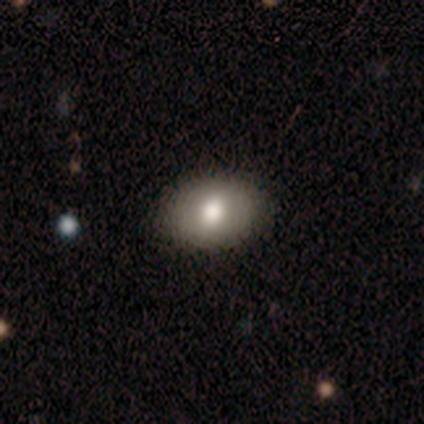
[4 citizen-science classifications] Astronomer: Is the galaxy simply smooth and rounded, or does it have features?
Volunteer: smooth — 100%.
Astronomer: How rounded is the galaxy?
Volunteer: in between — 75%.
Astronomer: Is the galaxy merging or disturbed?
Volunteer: none — 100%.